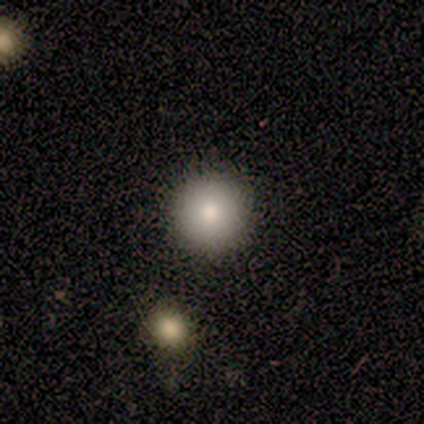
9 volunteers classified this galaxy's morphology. smooth_or_featured: smooth (p=0.89) [alt: featured or disk p=0.11]
how_rounded: round (p=1.00)
merging: none (p=1.00)